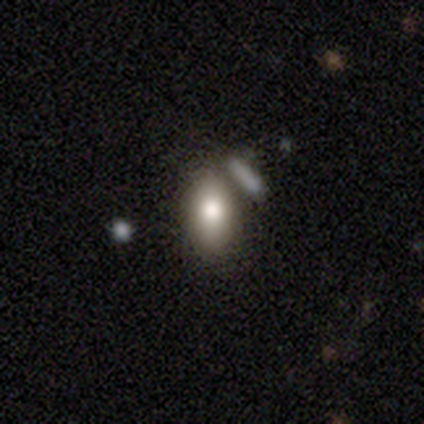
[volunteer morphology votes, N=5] Q: Smooth or featured?
A: smooth (60%); runner-up: featured or disk (20%)
Q: How rounded?
A: in between (100%)
Q: Merging?
A: none (50%); tied with: merger (50%)